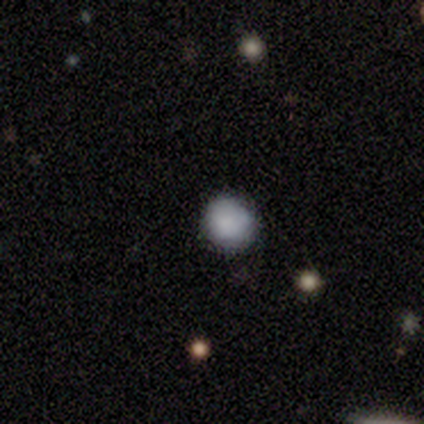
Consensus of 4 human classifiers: Smooth or featured: smooth — 100%
How rounded: round — 100%
Merging: none — 100%